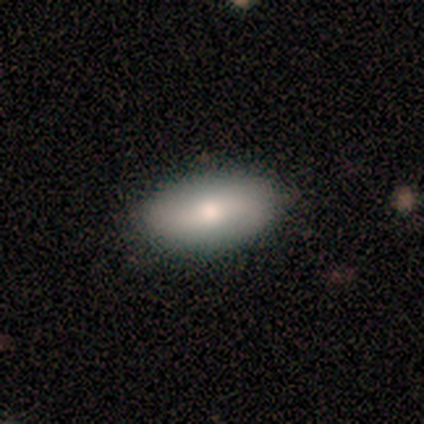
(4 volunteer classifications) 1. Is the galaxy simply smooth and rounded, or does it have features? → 75% smooth, 25% featured or disk, 0% star or artifact.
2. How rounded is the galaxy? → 67% in between, 33% cigar-shaped, 0% round.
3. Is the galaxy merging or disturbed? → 100% none, 0% minor disturbance, 0% major disturbance, 0% merger.